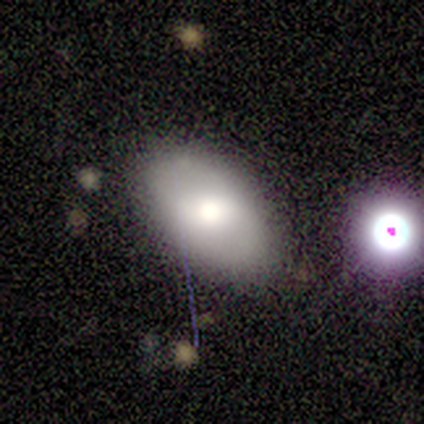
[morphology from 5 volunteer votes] smooth-or-featured: featured or disk: 60% | smooth: 40% | star or artifact: 0%
  disk-edge-on: no: 100% | yes: 0%
    bar: weak: 67% | no: 33% | strong: 0%
    has-spiral-arms: no: 100% | yes: 0%
    bulge-size: moderate: 100% | dominant: 0% | large: 0% | small: 0% | none: 0%
  merging: none: 40% (tied) | minor disturbance: 40% (tied) | merger: 20% | major disturbance: 0%